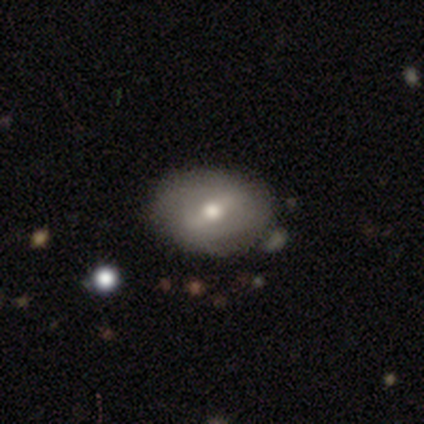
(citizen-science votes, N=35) Smooth or featured? featured or disk (51%)
Edge-on disk? no (100%)
Bar? strong (61%)
Spiral arms? no (67%)
Bulge size? moderate (83%)
Merging? none (76%)